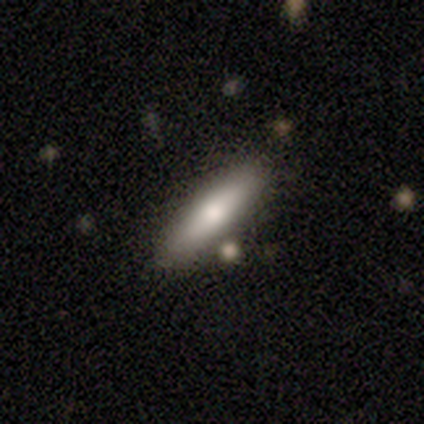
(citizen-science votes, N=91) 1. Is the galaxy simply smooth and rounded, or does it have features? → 81% smooth, 15% featured or disk, 3% star or artifact.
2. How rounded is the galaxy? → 81% cigar-shaped, 18% in between, 1% round.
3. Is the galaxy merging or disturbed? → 81% none, 10% minor disturbance, 6% merger, 3% major disturbance.